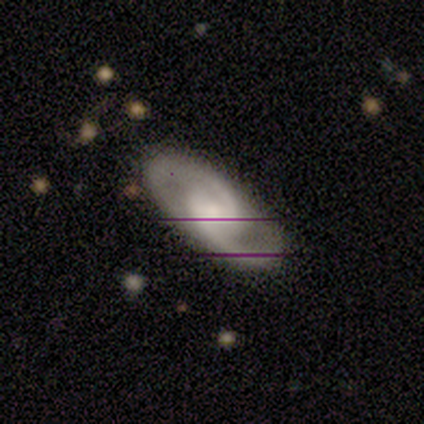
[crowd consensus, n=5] Q: Smooth or featured?
A: featured or disk (80%); runner-up: star or artifact (20%)
Q: Edge-on disk?
A: no (100%)
Q: Bar?
A: no (50%); runner-up: strong (25%)
Q: Spiral arms?
A: yes (100%)
Q: Spiral winding?
A: medium (50%); runner-up: tight (25%)
Q: Spiral arm count?
A: 2 (100%)
Q: Bulge size?
A: large (50%); tied with: moderate (50%)
Q: Merging?
A: none (75%); runner-up: minor disturbance (25%)